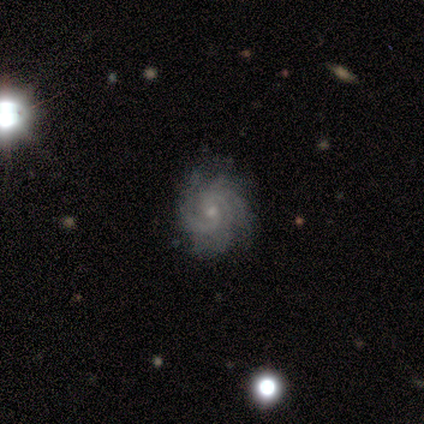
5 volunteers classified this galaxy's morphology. Smooth or featured? 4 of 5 (80%) said featured or disk. Edge-on disk? 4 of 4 (100%) said no. Bar? 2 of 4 (50%) said weak. Spiral arms? 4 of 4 (100%) said yes. Spiral winding? 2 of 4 (50%, tied with medium) said tight. Spiral arm count? 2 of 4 (50%) said 3. Bulge size? 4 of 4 (100%) said small. Merging? 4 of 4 (100%) said none.